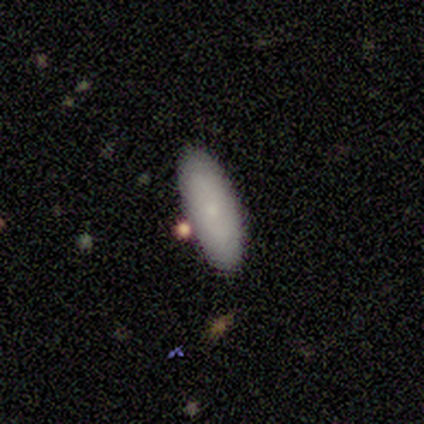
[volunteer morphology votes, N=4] Smooth or featured? 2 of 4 (50%, tied with featured or disk) said smooth. How rounded? 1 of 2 (50%, tied with cigar-shaped) said in between. Merging? 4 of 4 (100%) said none.